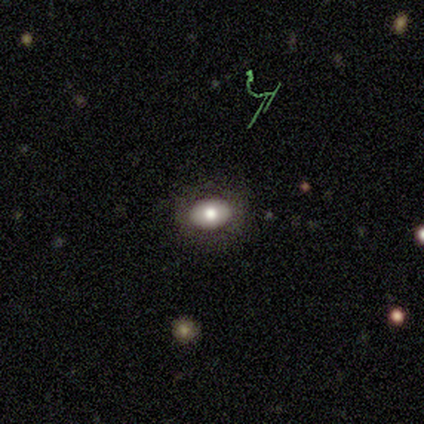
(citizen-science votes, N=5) Overall: smooth (60%; featured or disk 40%). How rounded: in between (100%). Merging: none (100%).